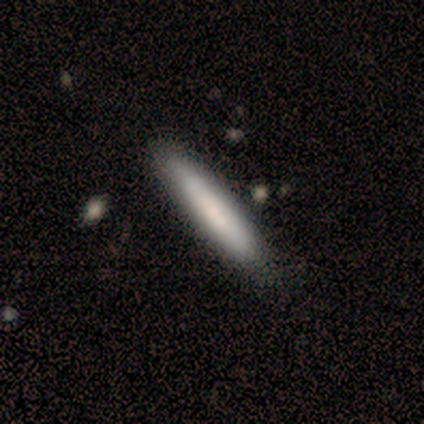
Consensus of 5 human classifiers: Smooth or featured: smooth — 100%
How rounded: cigar-shaped — 80% (in between — 20%)
Merging: none — 60% (minor disturbance — 40%)